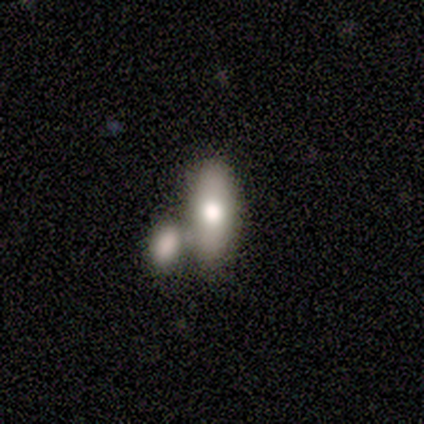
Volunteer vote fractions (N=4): This is likely a smooth galaxy (75%). How rounded: likely in between (67%). Merging: possibly none (50%, tied with merger).